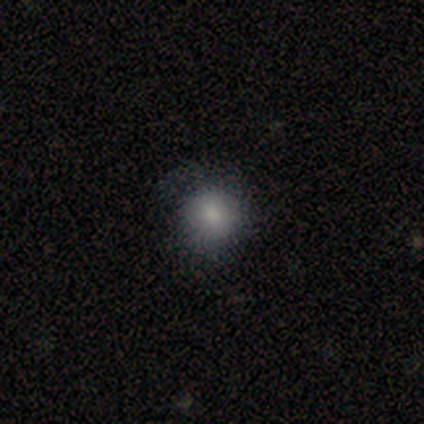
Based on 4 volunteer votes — A smooth galaxy with no disk features (100%) that is round (100%). Merging: none (50%).